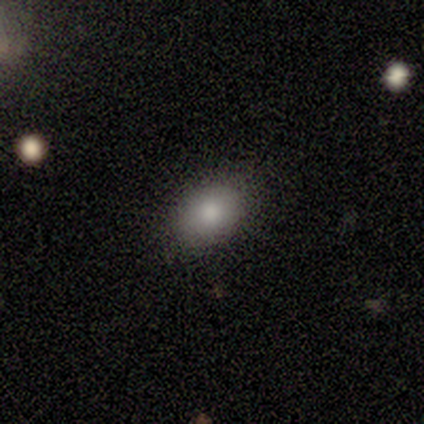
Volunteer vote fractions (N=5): A smooth galaxy with no disk features (100%) that is in between round and cigar-shaped (80%).

Vote fractions:
- Smooth or featured? smooth: 100% / featured or disk: 0% / star or artifact: 0%
- How rounded? in between: 80% / round: 20% / cigar-shaped: 0%
- Merging? none: 100% / minor disturbance: 0% / major disturbance: 0% / merger: 0%